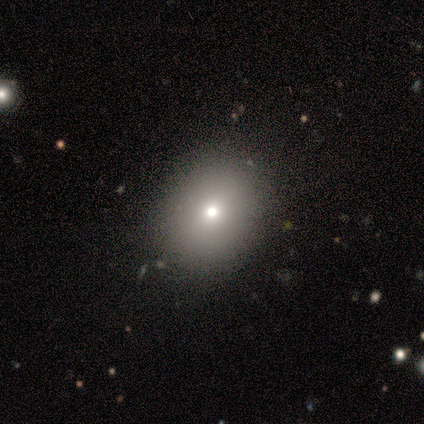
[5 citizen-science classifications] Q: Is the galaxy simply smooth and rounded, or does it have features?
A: smooth — 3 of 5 (60%).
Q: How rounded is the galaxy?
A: round — 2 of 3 (67%).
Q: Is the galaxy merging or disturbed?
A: none — 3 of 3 (100%).